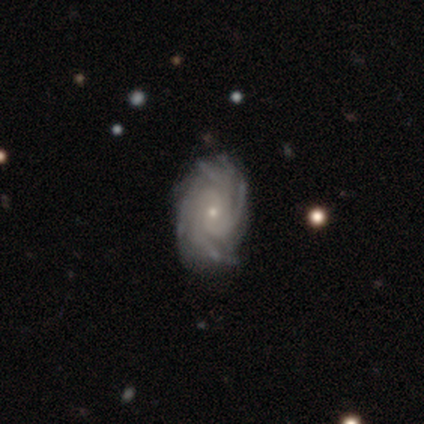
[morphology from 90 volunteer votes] smooth-or-featured: featured or disk: 92% | star or artifact: 7% | smooth: 1%
  disk-edge-on: no: 98% | yes: 2%
    bar: no: 70% | weak: 22% | strong: 7%
    has-spiral-arms: yes: 96% | no: 4%
      spiral-winding: tight: 68% | medium: 28% | loose: 4%
      spiral-arm-count: 4: 46% | more than 4: 41% | can't tell: 8% | 3: 5% | 1: 0% | 2: 0%
    bulge-size: small: 85% | moderate: 7% | none: 4% | large: 2% | dominant: 1%
  merging: none: 85% | minor disturbance: 13% | major disturbance: 1% | merger: 1%